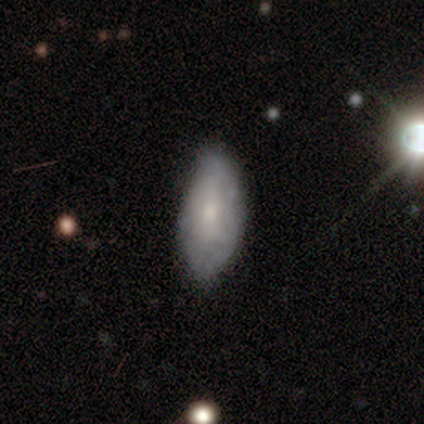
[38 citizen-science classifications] Smooth or featured? 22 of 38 (58%) said smooth. How rounded? 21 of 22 (95%) said in between. Merging? 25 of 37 (68%) said none.